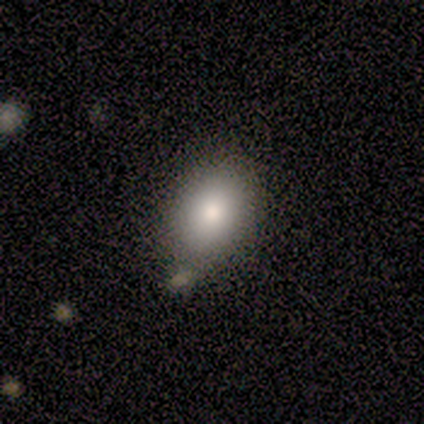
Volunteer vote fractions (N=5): A smooth galaxy with no disk features (100%) that is in between round and cigar-shaped (80%).

Vote fractions:
- Smooth or featured? smooth: 100% / featured or disk: 0% / star or artifact: 0%
- How rounded? in between: 80% / round: 20% / cigar-shaped: 0%
- Merging? none: 80% / minor disturbance: 20% / major disturbance: 0% / merger: 0%